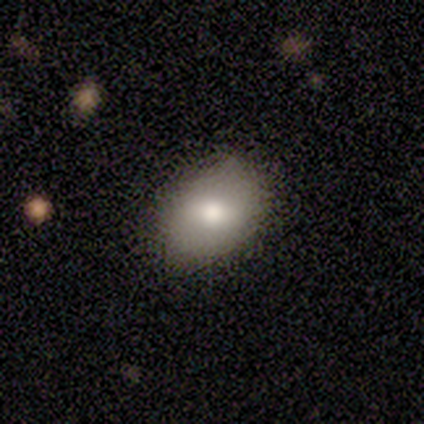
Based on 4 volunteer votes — Volunteers were most divided on "smooth or featured" (2-way tie): smooth: 50%, featured or disk: 50%, star or artifact: 0%; "how rounded" (2-way tie): round: 50%, in between: 50%, cigar-shaped: 0%. More confident: merging — none (100%).